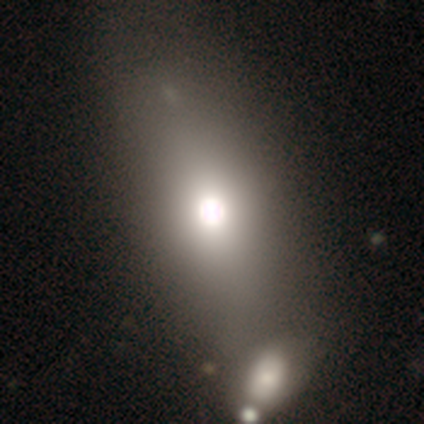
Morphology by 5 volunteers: Overall: featured or disk (40%, tied with star or artifact). Edge-on disk: yes (50%, tied with no). Edge-on bulge: rounded (100%). Merging: none (33%, tied with major disturbance and merger).